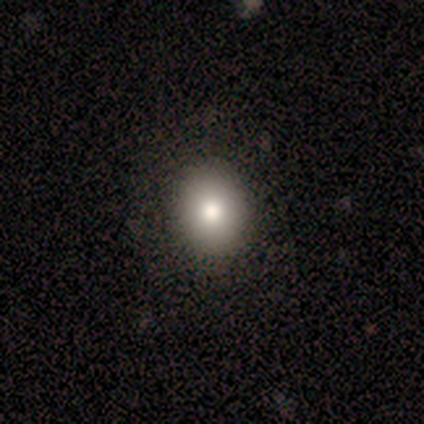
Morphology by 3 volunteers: This is clearly a smooth galaxy (100%). How rounded: likely round (67%). Merging: clearly none (100%).